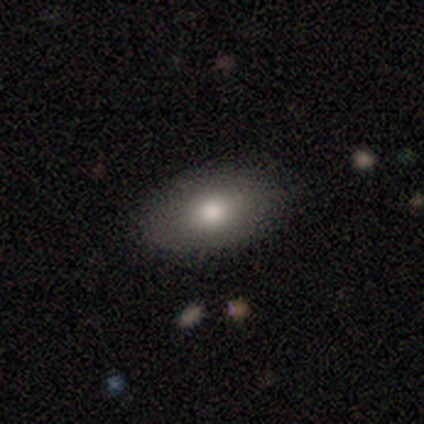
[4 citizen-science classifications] Overall: smooth (100%). How rounded: in between (100%). Merging: none (100%).